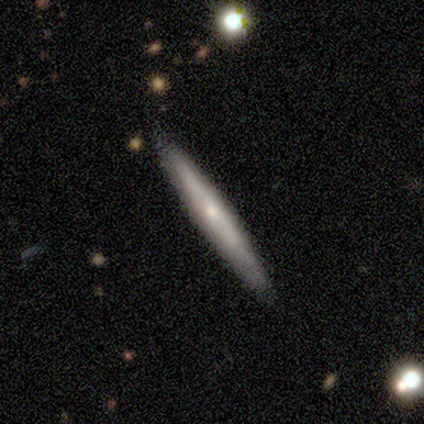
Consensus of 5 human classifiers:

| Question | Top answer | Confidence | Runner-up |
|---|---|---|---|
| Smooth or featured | featured or disk | 60% | smooth (40%) |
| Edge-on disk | yes | 67% | no (33%) |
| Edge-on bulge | none | 50% | tied: rounded (50%) |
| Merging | none | 100% | — |